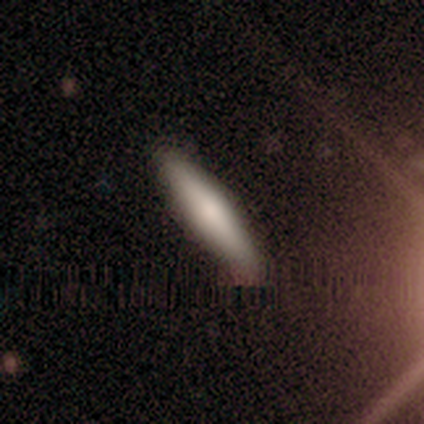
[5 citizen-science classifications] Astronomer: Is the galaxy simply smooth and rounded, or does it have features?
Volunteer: smooth — 80%.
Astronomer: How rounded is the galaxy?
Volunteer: cigar-shaped — 75%.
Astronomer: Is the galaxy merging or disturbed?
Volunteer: minor disturbance — 60% (runner-up: none, 40%).